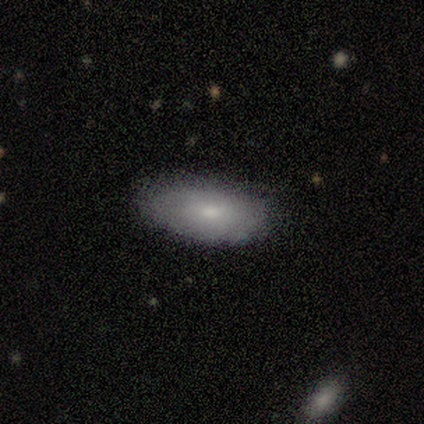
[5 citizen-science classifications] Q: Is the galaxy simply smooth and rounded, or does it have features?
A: smooth — 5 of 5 (100%).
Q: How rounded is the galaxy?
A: in between — 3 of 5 (60%).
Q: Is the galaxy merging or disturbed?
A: none — 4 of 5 (80%).